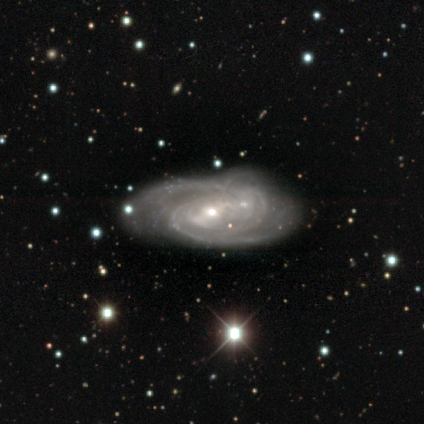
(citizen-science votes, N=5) A featured or disk galaxy (80%) with a weak bar (67%), 2 (33%, tied with more than 4 and can't tell) medium (67%) spiral arms (100%) and a small central bulge (67%). Merging: minor disturbance (60%).